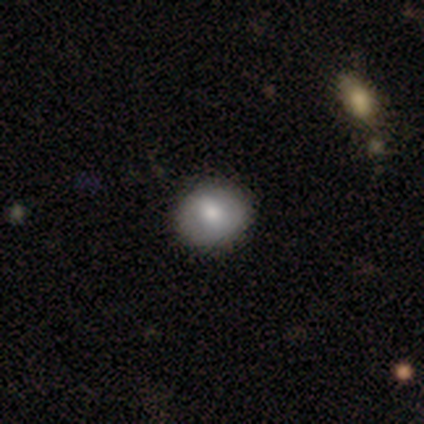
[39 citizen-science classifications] This appears to be a smooth galaxy with no disk features (69%) that is round (81%). Merging: none (89%).